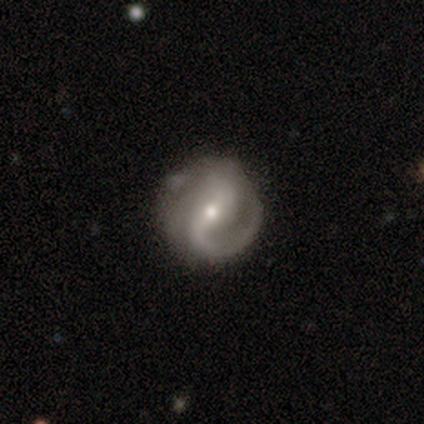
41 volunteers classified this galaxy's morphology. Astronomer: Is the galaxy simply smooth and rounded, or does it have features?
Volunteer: featured or disk — 93%.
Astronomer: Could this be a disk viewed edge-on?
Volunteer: no — 97%.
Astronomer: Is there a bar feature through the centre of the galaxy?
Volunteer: strong — 43%, tied with weak at 43%.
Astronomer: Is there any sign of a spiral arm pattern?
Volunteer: yes — 97%.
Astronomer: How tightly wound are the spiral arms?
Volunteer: medium — 69%.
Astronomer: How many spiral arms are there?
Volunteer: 2 — 67%.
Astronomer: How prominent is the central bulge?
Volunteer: small — 54% (runner-up: moderate, 41%).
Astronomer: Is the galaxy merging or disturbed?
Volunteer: none — 55% (runner-up: minor disturbance, 42%).